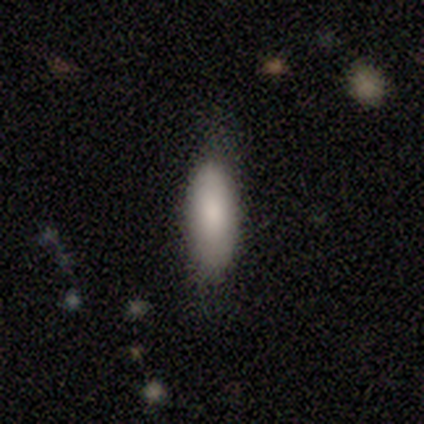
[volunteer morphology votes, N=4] A smooth galaxy with no disk features (100%) that is in between round and cigar-shaped (100%). Merging: none (75%).